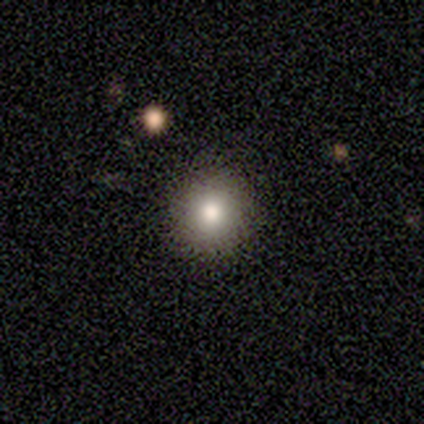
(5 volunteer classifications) Smooth or featured?
  - smooth: 80% *
  - star or artifact: 20%
  - featured or disk: 0%
How rounded?
  - round: 100% *
  - in between: 0%
  - cigar-shaped: 0%
Merging?
  - none: 100% *
  - minor disturbance: 0%
  - major disturbance: 0%
  - merger: 0%